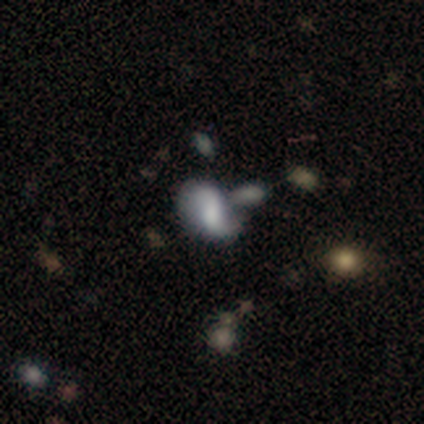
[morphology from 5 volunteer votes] Smooth or featured? smooth (60%)
How rounded? in between (100%)
Merging? merger (40%)